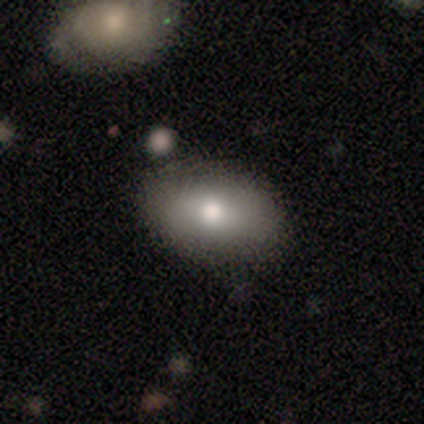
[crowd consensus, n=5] This is clearly a smooth galaxy (100%). How rounded: clearly in between (100%). Merging: clearly none (100%).